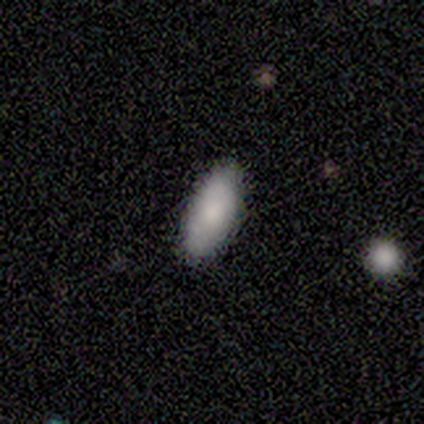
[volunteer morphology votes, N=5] Smooth or featured?
  - smooth: 100% *
  - featured or disk: 0%
  - star or artifact: 0%
How rounded?
  - in between: 100% *
  - round: 0%
  - cigar-shaped: 0%
Merging?
  - none: 80% *
  - major disturbance: 20%
  - minor disturbance: 0%
  - merger: 0%